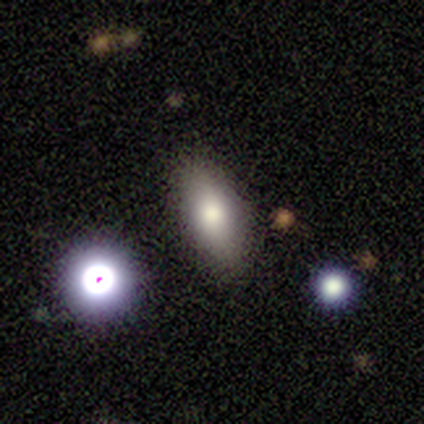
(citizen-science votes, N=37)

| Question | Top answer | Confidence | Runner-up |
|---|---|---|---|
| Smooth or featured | smooth | 81% | star or artifact (11%) |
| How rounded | in between | 77% | cigar-shaped (20%) |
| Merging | none | 73% | minor disturbance (27%) |